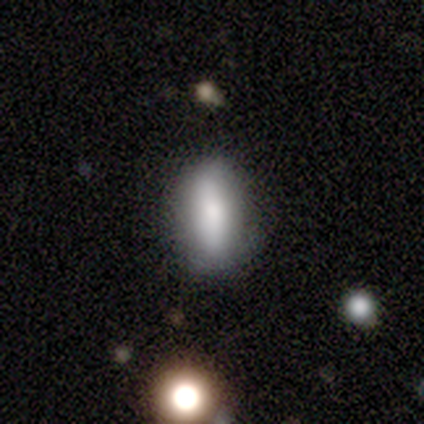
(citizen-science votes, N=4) Overall: smooth (100%). How rounded: in between (75%). Merging: none (75%).